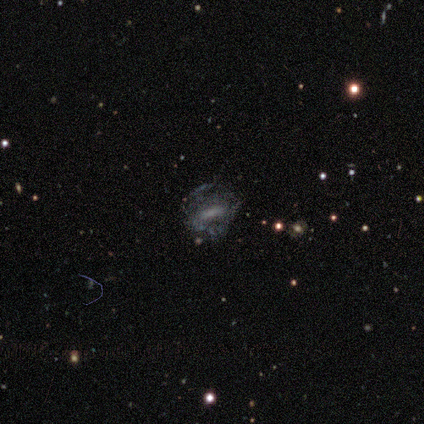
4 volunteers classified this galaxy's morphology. smooth-or-featured: featured or disk: 100% | smooth: 0% | star or artifact: 0%
  disk-edge-on: no: 100% | yes: 0%
    bar: no: 50% | strong: 25% | weak: 25%
    has-spiral-arms: yes: 50% (tied) | no: 50% (tied)
      spiral-winding: medium: 50% (tied) | loose: 50% (tied) | tight: 0%
      spiral-arm-count: can't tell: 100% | 1: 0% | 2: 0% | 3: 0% | 4: 0% | more than 4: 0%
    bulge-size: none: 50% | moderate: 25% | small: 25% | dominant: 0% | large: 0%
  merging: none: 75% | minor disturbance: 25% | major disturbance: 0% | merger: 0%